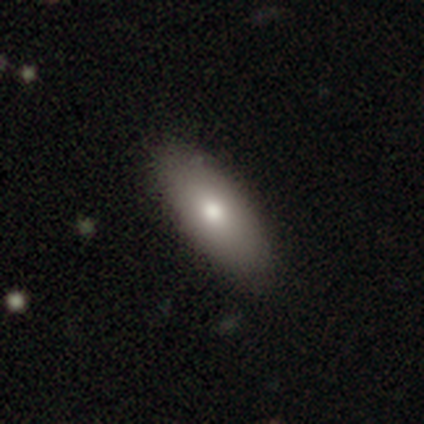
Overall: smooth (89%). How rounded: in between (87%). Merging: none (45%; minor disturbance 6%).